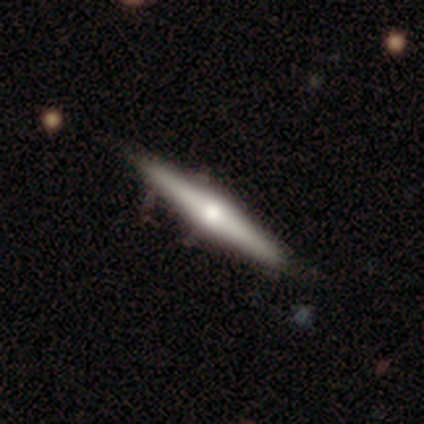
Q: Smooth or featured?
A: smooth (60%); runner-up: featured or disk (40%)
Q: How rounded?
A: cigar-shaped (100%)
Q: Merging?
A: none (100%)